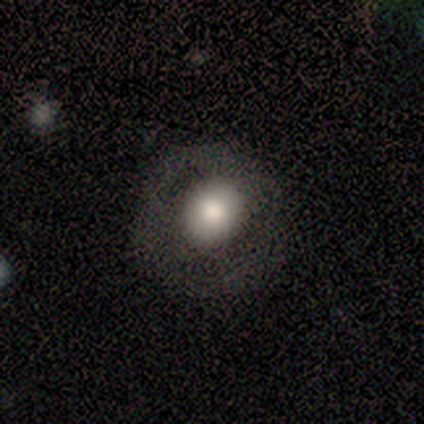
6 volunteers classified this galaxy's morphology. Volunteers were most divided on "merging": none: 67%, major disturbance: 33%, minor disturbance: 0%, merger: 0%. More confident: smooth or featured — smooth (83%); how rounded — round (80%).